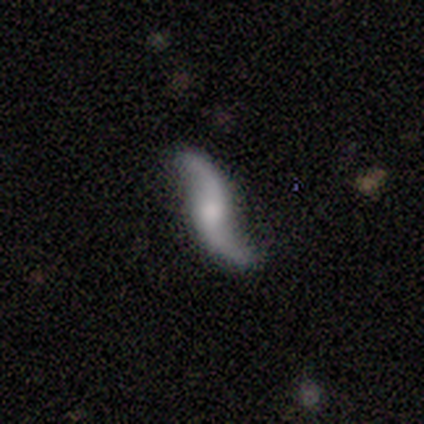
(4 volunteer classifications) Smooth or featured? featured or disk (75%)
Edge-on disk? no (67%)
Bar? no (100%)
Spiral arms? yes (100%)
Spiral winding? loose (100%)
Spiral arm count? 2 (100%)
Bulge size? small (50%, tied with none)
Merging? none (75%)